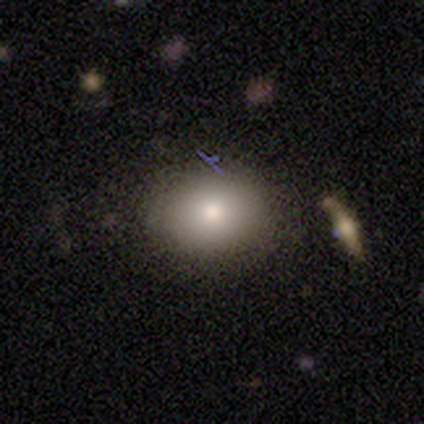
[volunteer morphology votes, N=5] type=smooth (80%); roundness=in between (75%); merging=none (100%).